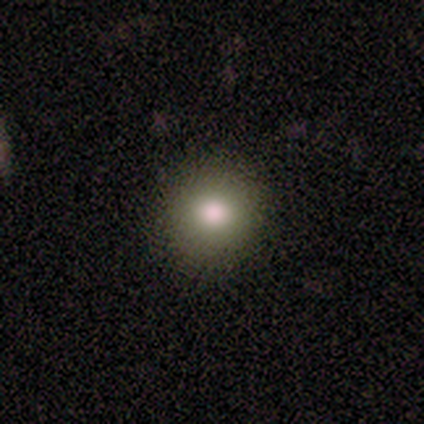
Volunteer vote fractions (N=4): smooth 75%, star or artifact 25%, featured or disk 0%. Down the decision tree: how rounded — round (100%); merging — none (100%).